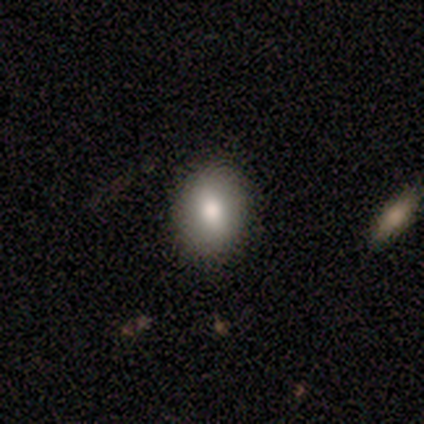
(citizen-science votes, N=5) A smooth galaxy with no disk features (80%) that is in between round and cigar-shaped (75%).

Vote fractions:
- Smooth or featured? smooth: 80% / featured or disk: 20% / star or artifact: 0%
- How rounded? in between: 75% / round: 25% / cigar-shaped: 0%
- Merging? none: 80% / major disturbance: 20% / minor disturbance: 0% / merger: 0%